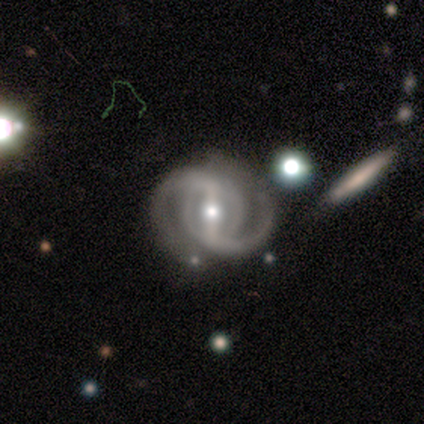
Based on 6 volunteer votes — Q: Smooth or featured?
A: featured or disk (100%)
Q: Edge-on disk?
A: no (100%)
Q: Bar?
A: strong (67%); runner-up: weak (17%)
Q: Spiral arms?
A: yes (100%)
Q: Spiral winding?
A: medium (50%); runner-up: tight (33%)
Q: Spiral arm count?
A: 2 (83%); runner-up: can't tell (17%)
Q: Bulge size?
A: moderate (50%); tied with: small (50%)
Q: Merging?
A: none (67%); runner-up: minor disturbance (17%)